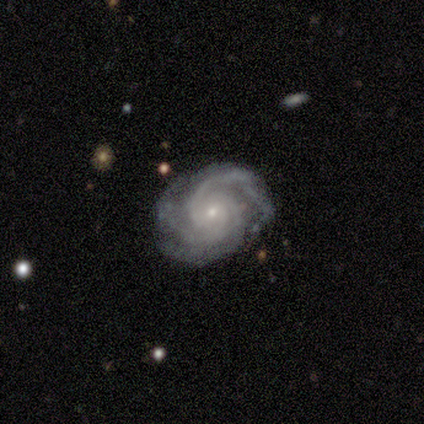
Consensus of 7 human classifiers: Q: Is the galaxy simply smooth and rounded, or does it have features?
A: featured or disk — 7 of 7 (100%).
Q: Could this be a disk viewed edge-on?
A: no — 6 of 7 (86%).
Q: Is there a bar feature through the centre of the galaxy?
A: weak — 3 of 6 (50%, tied with no).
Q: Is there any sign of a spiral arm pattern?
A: yes — 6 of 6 (100%).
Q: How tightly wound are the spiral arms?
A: tight — 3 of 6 (50%).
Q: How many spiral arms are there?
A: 3 — 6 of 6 (100%).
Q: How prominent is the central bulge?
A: moderate — 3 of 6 (50%, tied with small).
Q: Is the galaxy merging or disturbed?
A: none — 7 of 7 (100%).